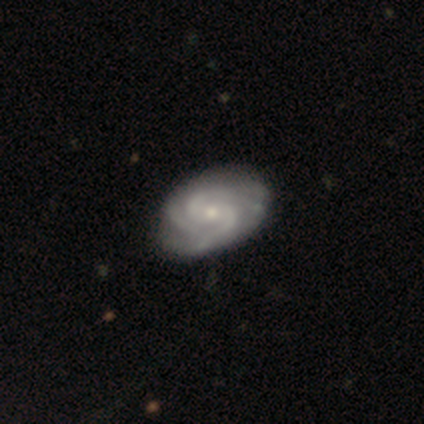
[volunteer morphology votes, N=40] smooth-or-featured: featured or disk: 88% | star or artifact: 10% | smooth: 2%
  disk-edge-on: no: 97% | yes: 3%
    bar: no: 50% | weak: 47% | strong: 3%
    has-spiral-arms: yes: 97% | no: 3%
      spiral-winding: tight: 55% | medium: 39% | loose: 6%
      spiral-arm-count: 3: 39% | 2: 33% | 4: 15% | can't tell: 9% | more than 4: 3% | 1: 0%
    bulge-size: small: 74% | moderate: 26% | dominant: 0% | large: 0% | none: 0%
  merging: none: 58% | minor disturbance: 11% | major disturbance: 0% | merger: 0%